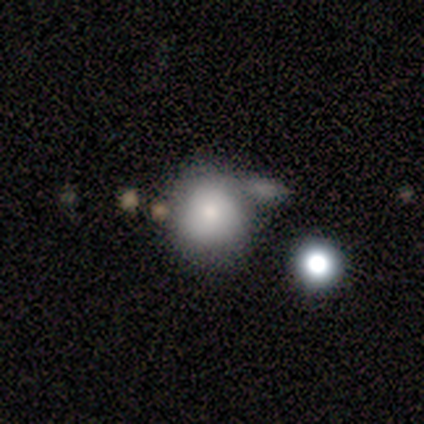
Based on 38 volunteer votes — Smooth or featured: smooth — 76% (star or artifact — 16%)
How rounded: round — 83% (in between — 17%)
Merging: none — 44% (minor disturbance — 28%)